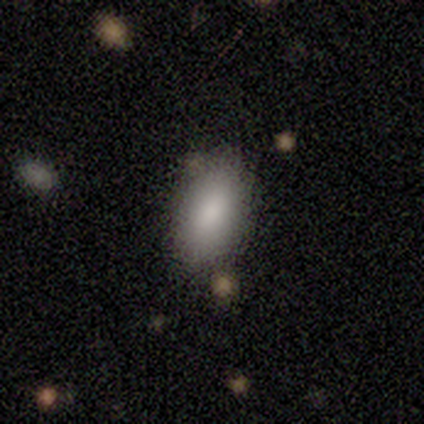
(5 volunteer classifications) Morphology: type=smooth (100%); roundness=in between (100%); merging=none (40%, tied with minor disturbance).